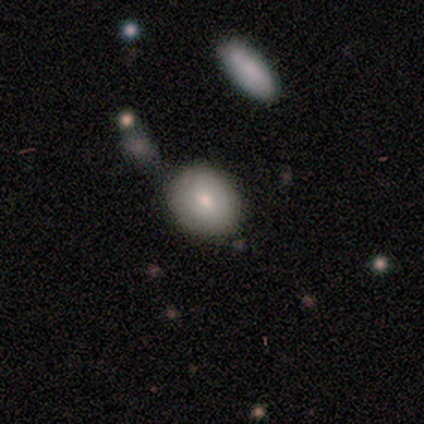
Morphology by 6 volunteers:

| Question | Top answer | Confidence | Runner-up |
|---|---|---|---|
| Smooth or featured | smooth | 83% | featured or disk (17%) |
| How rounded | round | 80% | in between (20%) |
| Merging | none | 67% | minor disturbance (17%) |